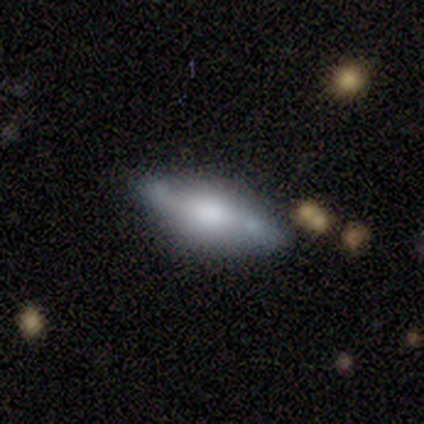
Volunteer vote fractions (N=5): smooth_or_featured: featured or disk (p=1.00)
disk_edge_on: yes (p=0.80) [alt: no p=0.20]
edge_on_bulge: rounded (p=0.75) [alt: boxy p=0.25]
merging: none (p=0.80) [alt: minor disturbance p=0.20]